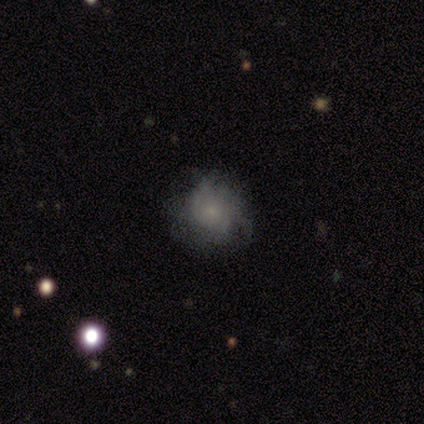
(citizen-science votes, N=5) smooth_or_featured: smooth (p=0.40) [tied with: featured or disk p=0.40]
how_rounded: round (p=1.00)
merging: none (p=0.75) [alt: minor disturbance p=0.25]